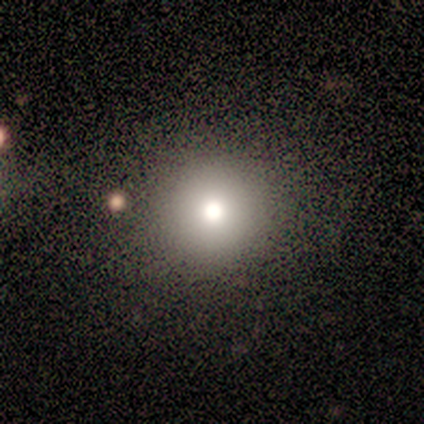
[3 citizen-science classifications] Smooth or featured? 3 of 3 (100%) said smooth. How rounded? 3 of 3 (100%) said round. Merging? 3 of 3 (100%) said none.